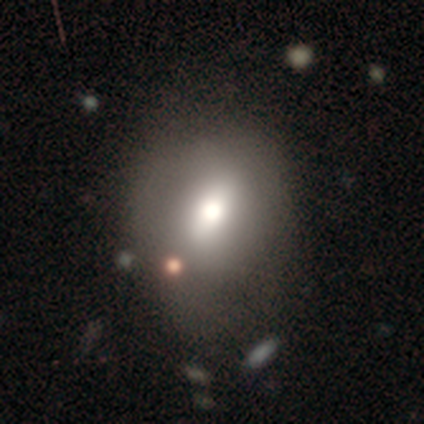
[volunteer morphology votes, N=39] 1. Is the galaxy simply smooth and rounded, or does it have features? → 69% smooth, 23% featured or disk, 8% star or artifact.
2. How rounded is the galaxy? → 56% round, 41% in between, 4% cigar-shaped.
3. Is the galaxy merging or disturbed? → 67% none, 22% minor disturbance, 8% major disturbance, 3% merger.